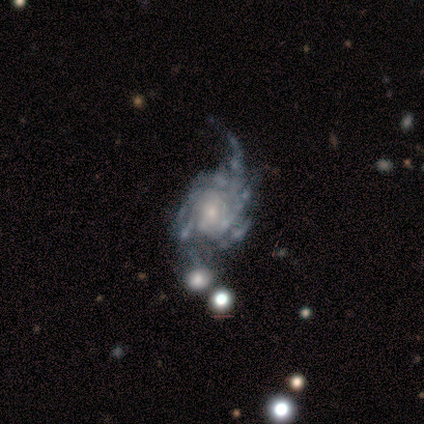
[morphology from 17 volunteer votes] smooth-or-featured: featured or disk: 88% | star or artifact: 12% | smooth: 0%
  disk-edge-on: no: 100% | yes: 0%
    bar: no: 87% | weak: 13% | strong: 0%
    has-spiral-arms: yes: 87% | no: 13%
      spiral-winding: loose: 46% | medium: 31% | tight: 23%
      spiral-arm-count: 4: 31% (tied) | can't tell: 31% (tied) | more than 4: 23% | 1: 8% | 2: 8% | 3: 0%
    bulge-size: small: 53% | moderate: 47% | dominant: 0% | large: 0% | none: 0%
  merging: none: 60% | major disturbance: 27% | minor disturbance: 7% | merger: 7%